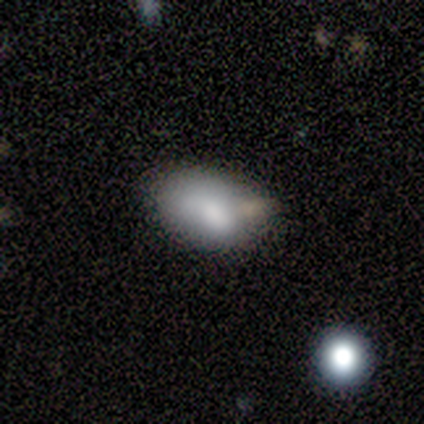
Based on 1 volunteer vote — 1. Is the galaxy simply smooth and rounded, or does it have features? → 100% star or artifact, 0% smooth, 0% featured or disk.